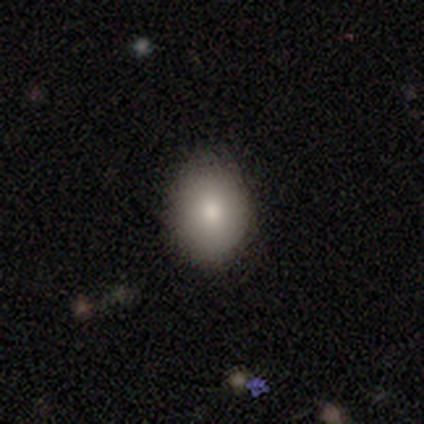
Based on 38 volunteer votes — smooth_or_featured: smooth (p=0.82) [alt: featured or disk p=0.16]
how_rounded: in between (p=0.71) [alt: round p=0.29]
merging: none (p=0.86) [alt: minor disturbance p=0.11]